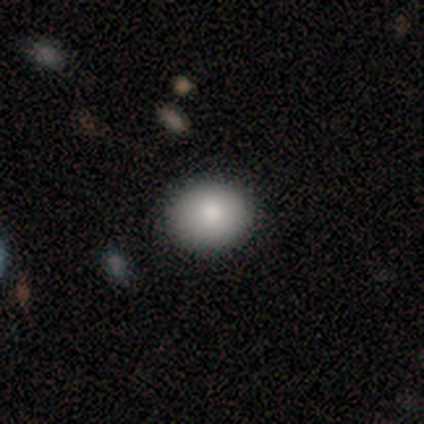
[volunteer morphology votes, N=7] Smooth or featured: smooth — 86% (featured or disk — 14%)
How rounded: round — 67% (in between — 33%)
Merging: none — 100%